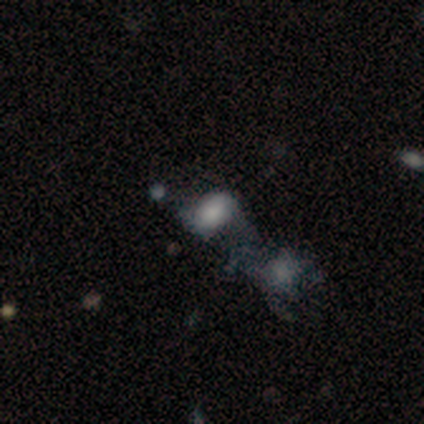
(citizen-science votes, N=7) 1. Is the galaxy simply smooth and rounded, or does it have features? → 71% smooth, 29% featured or disk, 0% star or artifact.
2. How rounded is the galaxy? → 100% in between, 0% round, 0% cigar-shaped.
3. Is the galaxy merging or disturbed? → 71% merger, 29% major disturbance, 0% none, 0% minor disturbance.